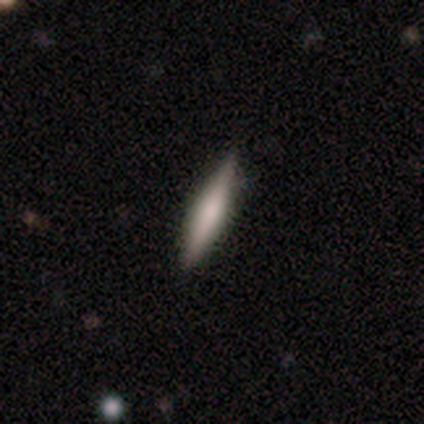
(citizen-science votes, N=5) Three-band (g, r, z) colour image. It shows a smooth galaxy with no disk features (60%) that is cigar-shaped (100%). Merging: none (100%).